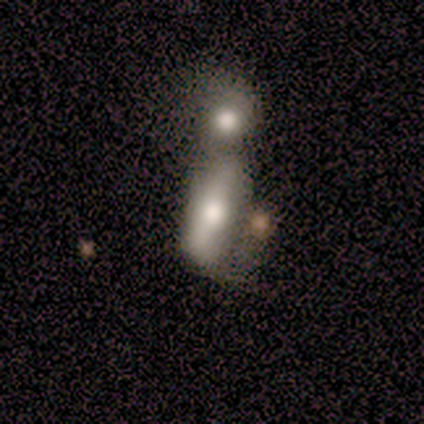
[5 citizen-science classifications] star or artifact 60%, smooth 40%, featured or disk 0%.